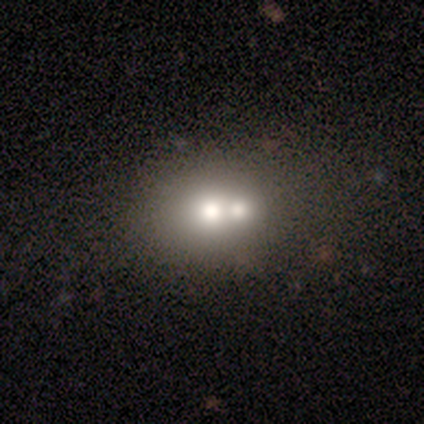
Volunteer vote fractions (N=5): smooth 60%, featured or disk 20%, star or artifact 20%. Down the decision tree: how rounded — in between (67%); merging — merger (75%).